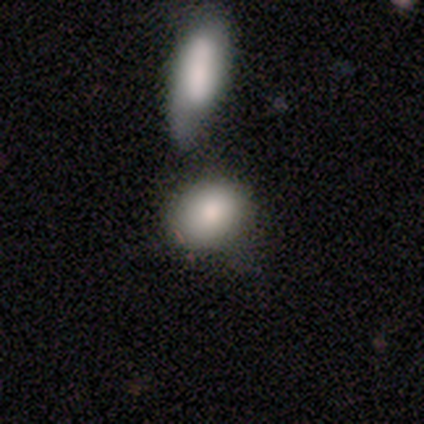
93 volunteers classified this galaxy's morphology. smooth_or_featured: smooth (p=0.87) [alt: featured or disk p=0.10]
how_rounded: in between (p=0.67) [alt: round p=0.31]
merging: none (p=0.42) [alt: merger p=0.30]